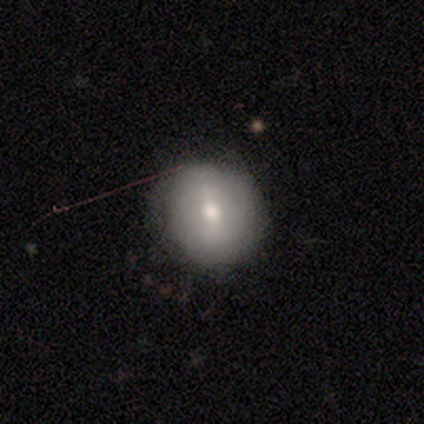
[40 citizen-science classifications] featured or disk 48%, smooth 45%, star or artifact 8%. Down the decision tree: edge-on disk — no (100%); bar — weak (63%); spiral arms — no (79%); bulge size — moderate (74%); merging — none (59%).